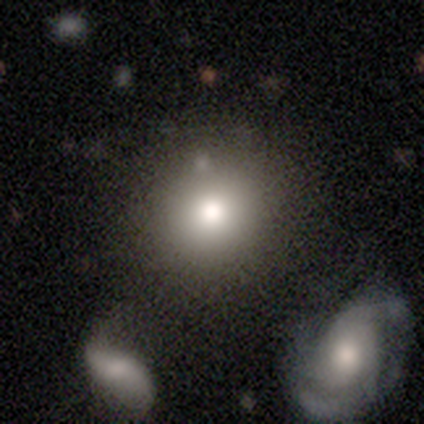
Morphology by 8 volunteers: Volunteers were most divided on "merging": none: 62%, minor disturbance: 25%, merger: 12%, major disturbance: 0%. More confident: how rounded — round (100%); smooth or featured — smooth (88%).